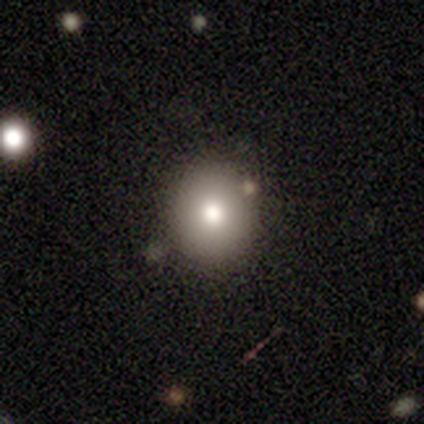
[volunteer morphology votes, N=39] smooth 67%, star or artifact 26%, featured or disk 8%. Down the decision tree: how rounded — round (92%); merging — none (79%).